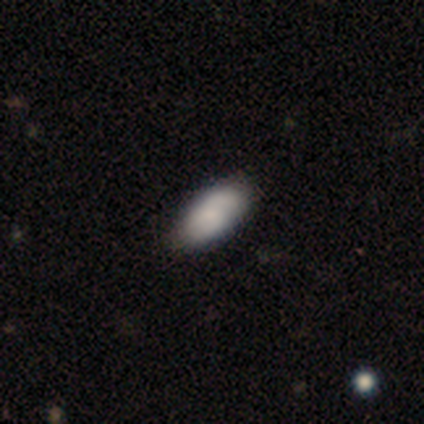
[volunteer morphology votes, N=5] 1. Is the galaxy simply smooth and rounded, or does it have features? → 100% smooth, 0% featured or disk, 0% star or artifact.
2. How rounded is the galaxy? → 100% in between, 0% round, 0% cigar-shaped.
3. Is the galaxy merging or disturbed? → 80% none, 20% minor disturbance, 0% major disturbance, 0% merger.